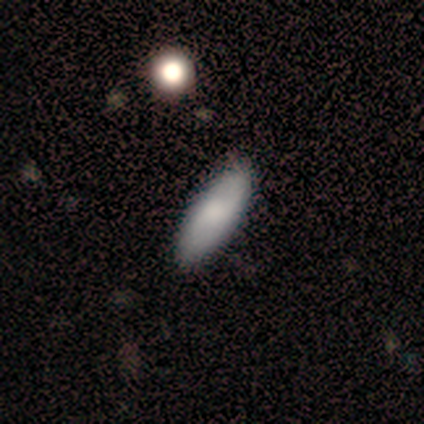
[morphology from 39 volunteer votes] Smooth or featured: smooth — 79% (featured or disk — 21%)
How rounded: in between — 74% (cigar-shaped — 26%)
Merging: none — 69% (minor disturbance — 5%)